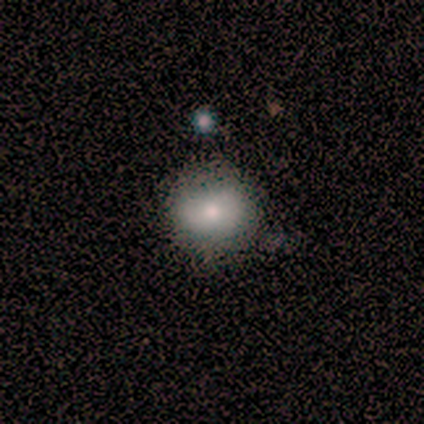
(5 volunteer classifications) smooth 80%, featured or disk 20%, star or artifact 0%. Down the decision tree: how rounded — round (50%, tied with in between); merging — none (80%).